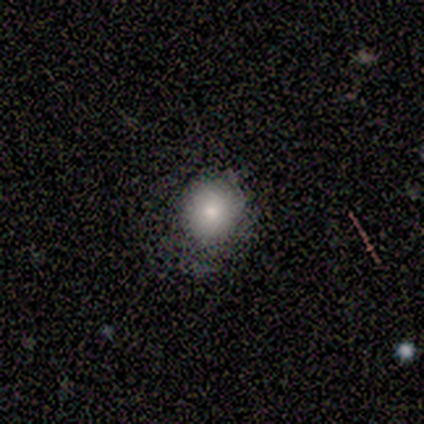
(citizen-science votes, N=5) smooth-or-featured: featured or disk: 60% | smooth: 20% | star or artifact: 20%
  disk-edge-on: no: 100% | yes: 0%
    bar: no: 100% | strong: 0% | weak: 0%
    has-spiral-arms: no: 100% | yes: 0%
    bulge-size: large: 33% (tied) | moderate: 33% (tied) | small: 33% (tied) | dominant: 0% | none: 0%
  merging: none: 50% | minor disturbance: 25% | major disturbance: 25% | merger: 0%